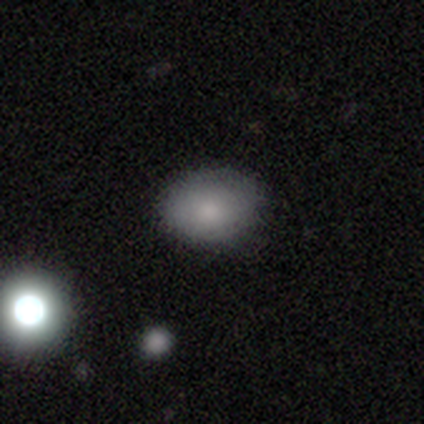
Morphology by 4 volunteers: smooth 100%, featured or disk 0%, star or artifact 0%. Down the decision tree: how rounded — round (50%, tied with in between); merging — none (50%).